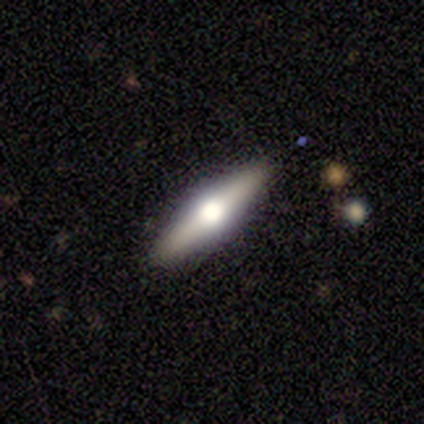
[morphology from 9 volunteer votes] smooth-or-featured: featured or disk: 89% | smooth: 11% | star or artifact: 0%
  disk-edge-on: yes: 100% | no: 0%
    edge-on-bulge: rounded: 100% | boxy: 0% | none: 0%
  merging: none: 78% | minor disturbance: 11% | major disturbance: 11% | merger: 0%